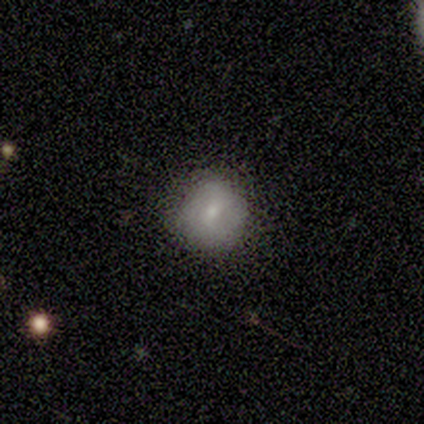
smooth_or_featured: smooth (p=0.80) [alt: featured or disk p=0.20]
how_rounded: round (p=1.00)
merging: none (p=0.80) [alt: minor disturbance p=0.20]